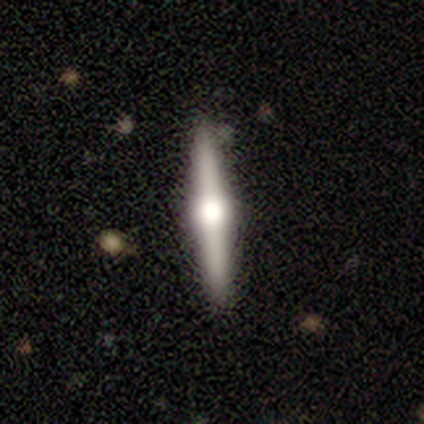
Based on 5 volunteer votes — Smooth or featured: featured or disk — 80% (smooth — 20%)
Edge-on disk: yes — 100%
Edge-on bulge: rounded — 100%
Merging: none — 80% (minor disturbance — 20%)